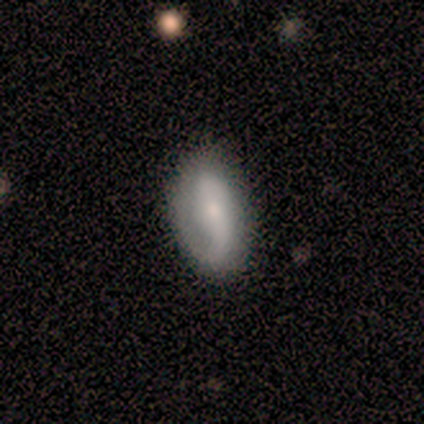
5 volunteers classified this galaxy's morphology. smooth_or_featured: featured or disk (p=0.80) [alt: smooth p=0.20]
disk_edge_on: no (p=1.00)
bar: no (p=0.75) [alt: weak p=0.25]
has_spiral_arms: yes (p=1.00)
spiral_winding: medium (p=0.50) [tied with: loose p=0.50]
spiral_arm_count: 2 (p=1.00)
bulge_size: small (p=0.75) [alt: none p=0.25]
merging: none (p=0.60) [alt: minor disturbance p=0.40]